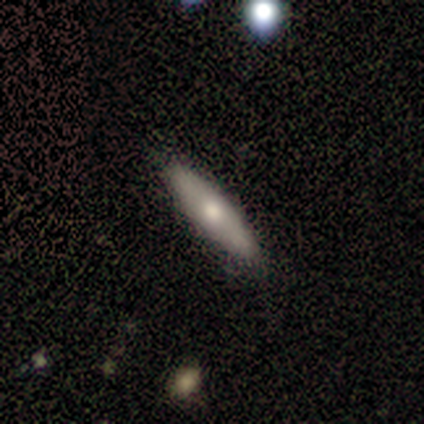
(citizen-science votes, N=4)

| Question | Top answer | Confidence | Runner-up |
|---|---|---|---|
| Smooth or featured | smooth | 50% | tied: star or artifact (50%) |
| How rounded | in between | 50% | tied: cigar-shaped (50%) |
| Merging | none | 100% | — |